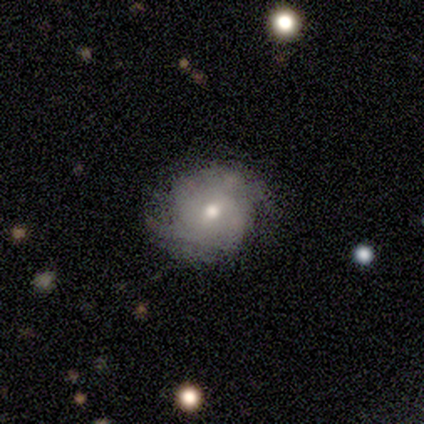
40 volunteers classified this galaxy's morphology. Smooth or featured? featured or disk (68%)
Edge-on disk? no (100%)
Bar? no (52%)
Spiral arms? yes (85%)
Spiral winding? tight (48%)
Spiral arm count? 2 (61%)
Bulge size? moderate (81%)
Merging? none (58%)